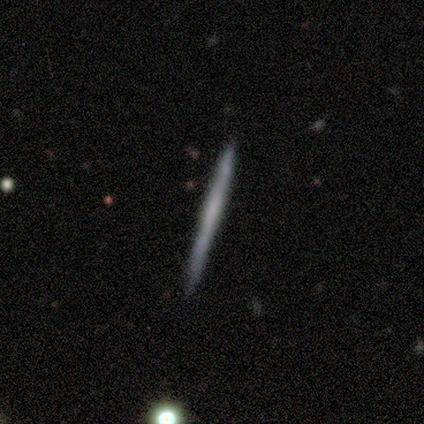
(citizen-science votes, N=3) Morphology: type=smooth (33%, tied with featured or disk and star or artifact); roundness=cigar-shaped (100%); merging=none (100%).